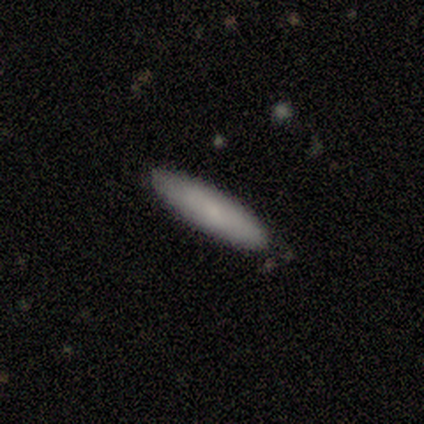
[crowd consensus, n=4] A smooth galaxy with no disk features (75%) that is cigar-shaped (100%).

Vote fractions:
- Smooth or featured? smooth: 75% / featured or disk: 25% / star or artifact: 0%
- How rounded? cigar-shaped: 100% / round: 0% / in between: 0%
- Merging? none: 100% / minor disturbance: 0% / major disturbance: 0% / merger: 0%